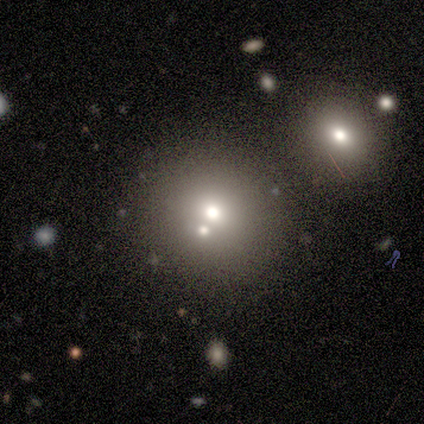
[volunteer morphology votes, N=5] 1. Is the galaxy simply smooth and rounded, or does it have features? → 60% smooth, 20% featured or disk, 20% star or artifact.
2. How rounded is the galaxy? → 100% round, 0% in between, 0% cigar-shaped.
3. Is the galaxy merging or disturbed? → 75% merger, 25% none, 0% minor disturbance, 0% major disturbance.